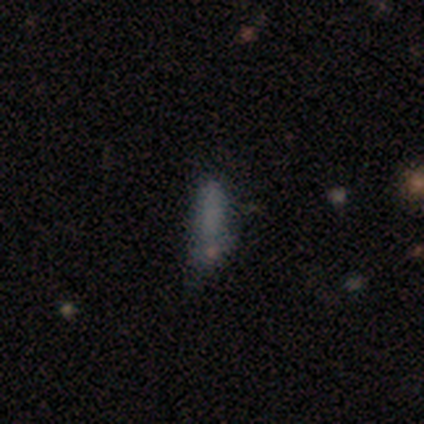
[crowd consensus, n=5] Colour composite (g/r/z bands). It shows a smooth galaxy with no disk features (40%, tied with star or artifact) that is in between round and cigar-shaped (100%). Merging: minor disturbance (67%).